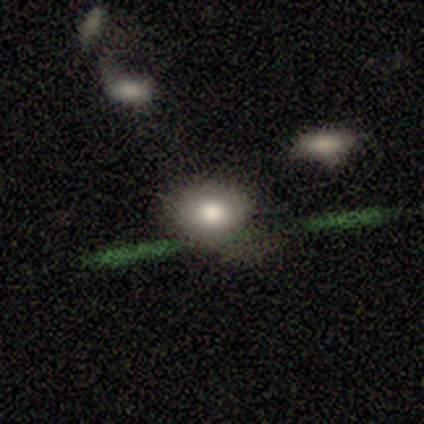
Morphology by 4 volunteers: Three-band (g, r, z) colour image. It shows a featured or disk galaxy (50%) viewed edge-on (50%, tied with no) with a rounded central bulge (100%). Merging: none (67%).